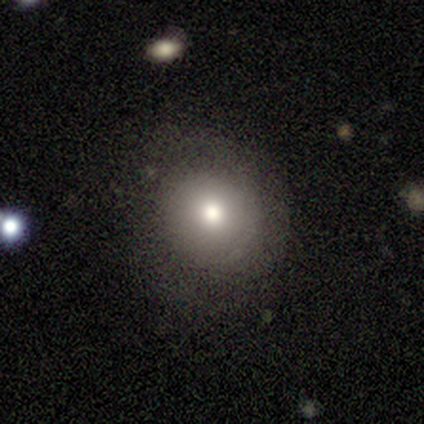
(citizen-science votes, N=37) A smooth galaxy with no disk features (68%) that is round (80%). Merging: none (75%).